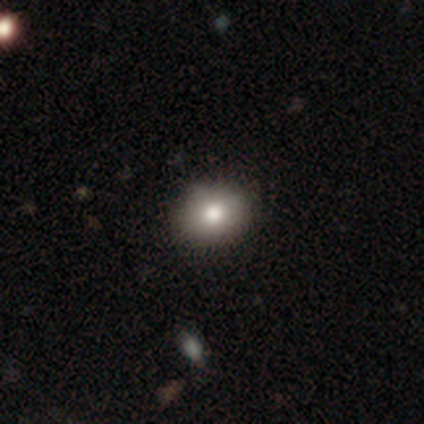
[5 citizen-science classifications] Smooth or featured: smooth — 80% (featured or disk — 20%)
How rounded: round — 50% (tied with in between — 50%)
Merging: none — 80% (minor disturbance — 20%)